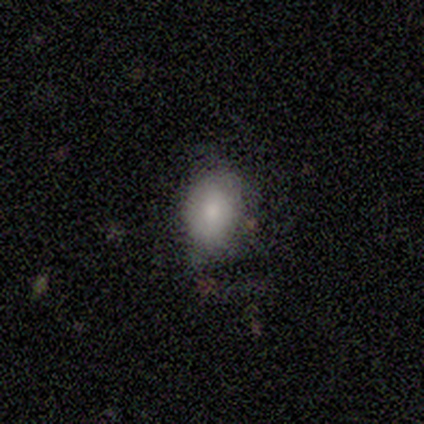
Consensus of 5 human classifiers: Volunteers were most divided on "merging" (2-way tie): none: 50%, minor disturbance: 50%, major disturbance: 0%, merger: 0%. More confident: edge-on disk — no (100%); bulge size — moderate (100%); bar — weak (67%); spiral arms — no (67%); smooth or featured — featured or disk (60%).